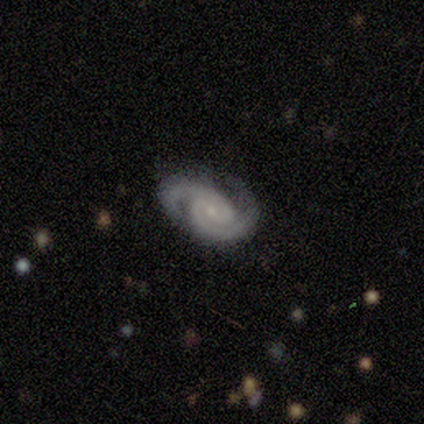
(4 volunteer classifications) A featured or disk galaxy (75%) with no bar (67%), 2 (100%) tight (67%) spiral arms (100%) and a small central bulge (100%). Merging: none (100%).